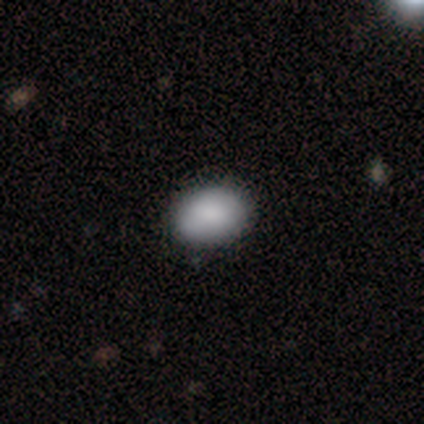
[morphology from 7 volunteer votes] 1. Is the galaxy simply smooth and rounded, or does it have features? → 86% smooth, 14% featured or disk, 0% star or artifact.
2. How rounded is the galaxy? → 83% in between, 17% round, 0% cigar-shaped.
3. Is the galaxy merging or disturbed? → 100% none, 0% minor disturbance, 0% major disturbance, 0% merger.